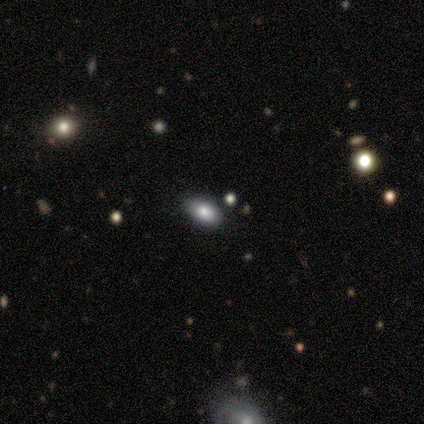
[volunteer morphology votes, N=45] This appears to be a smooth galaxy with no disk features (71%) that is in between round and cigar-shaped (97%). Merging: none (76%).